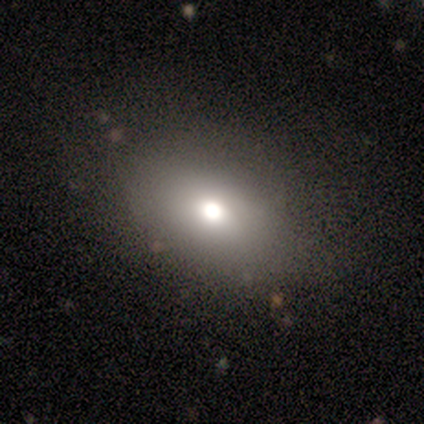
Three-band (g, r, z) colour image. It shows a smooth galaxy with no disk features (60%) that is in between round and cigar-shaped (67%). Merging: none (100%).